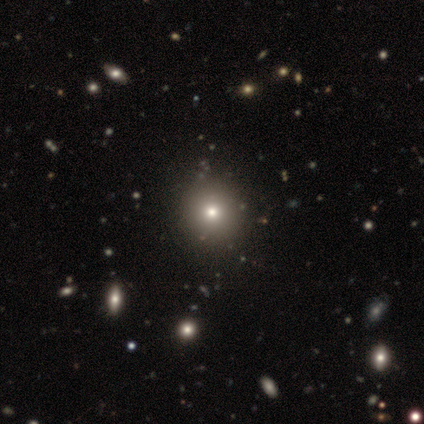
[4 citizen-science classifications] Morphology: type=smooth (75%); roundness=round (100%); merging=none (67%).